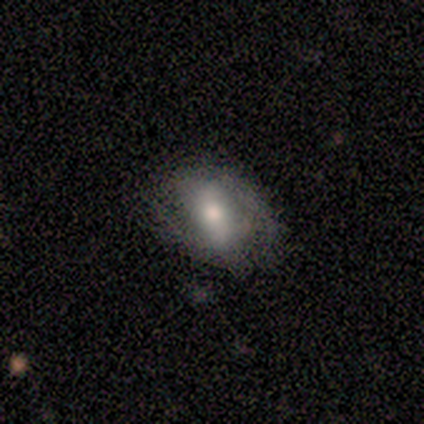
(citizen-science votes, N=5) This is likely a featured or disk galaxy (60%). It is clearly not viewed edge-on (100%). Bar: marginally strong (33%, tied with weak and no). Spiral arm pattern: likely yes (67%). Spiral arm count: clearly 2 (100%). Spiral winding: possibly tight (50%, tied with medium). Central bulge: likely small (67%). Merging: clearly none (80%).